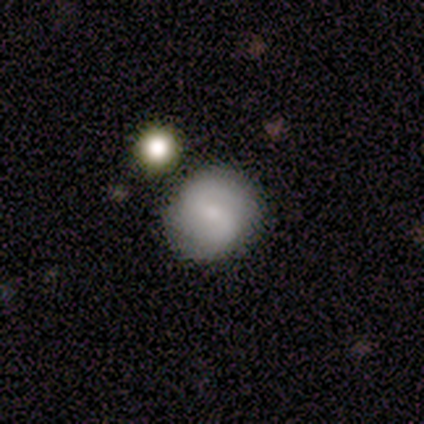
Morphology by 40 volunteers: Overall: smooth (55%; featured or disk 45%). How rounded: round (91%). Merging: none (85%).